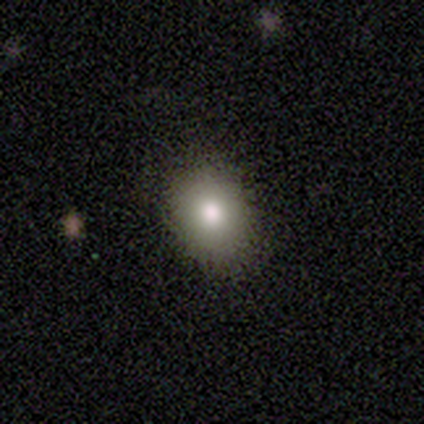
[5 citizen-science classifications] This appears to be a smooth galaxy with no disk features (80%) that is round (50%, tied with in between). Merging: none (75%).